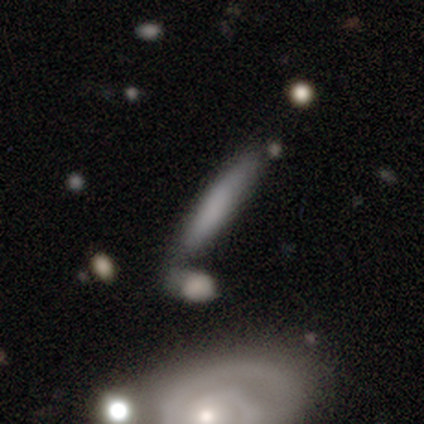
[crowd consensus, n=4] Morphology: type=smooth (50%); roundness=cigar-shaped (100%); merging=none (33%, tied with minor disturbance and major disturbance).